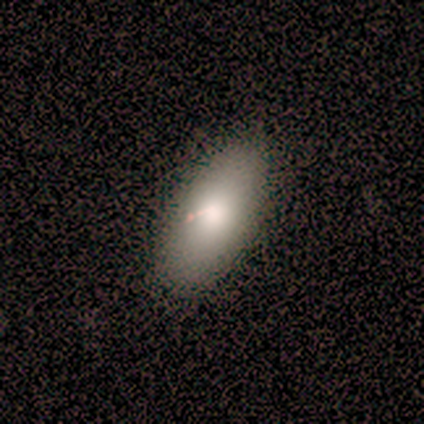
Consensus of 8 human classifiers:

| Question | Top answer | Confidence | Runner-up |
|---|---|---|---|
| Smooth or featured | smooth | 50% | featured or disk (38%) |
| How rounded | in between | 100% | — |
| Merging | none | 71% | minor disturbance (14%) |